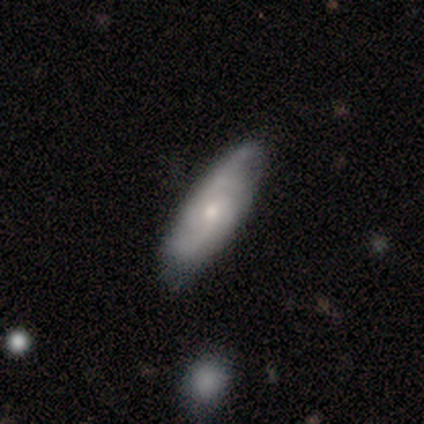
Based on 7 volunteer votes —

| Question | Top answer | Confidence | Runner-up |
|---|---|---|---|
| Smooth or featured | featured or disk | 71% | smooth (14%) |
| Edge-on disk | no | 80% | yes (20%) |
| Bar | weak | 50% | tied: no (50%) |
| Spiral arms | yes | 50% | tied: no (50%) |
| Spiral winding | medium | 100% | — |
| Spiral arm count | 2 | 100% | — |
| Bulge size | moderate | 50% | tied: small (50%) |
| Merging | minor disturbance | 83% | none (17%) |